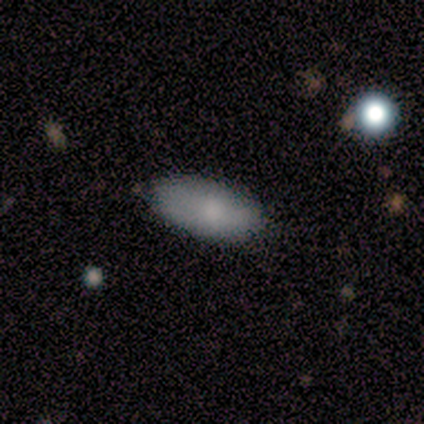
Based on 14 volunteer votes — smooth_or_featured: smooth (p=0.79) [alt: featured or disk p=0.21]
how_rounded: in between (p=1.00)
merging: none (p=0.86) [alt: minor disturbance p=0.14]